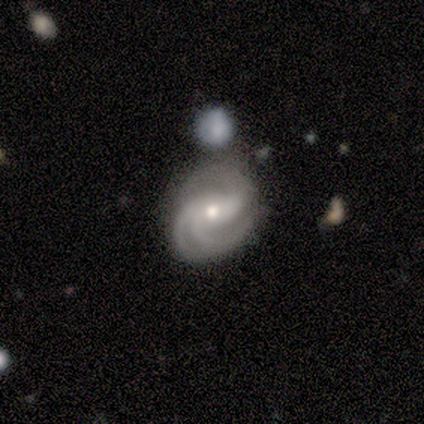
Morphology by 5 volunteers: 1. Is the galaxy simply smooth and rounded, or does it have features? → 100% featured or disk, 0% smooth, 0% star or artifact.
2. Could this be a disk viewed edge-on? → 100% no, 0% yes.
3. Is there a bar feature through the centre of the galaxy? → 40% strong (tied), 40% no (tied), 20% weak.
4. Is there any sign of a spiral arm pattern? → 100% yes, 0% no.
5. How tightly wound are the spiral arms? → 60% medium, 40% tight, 0% loose.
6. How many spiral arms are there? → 100% 3, 0% 1, 0% 2, 0% 4, 0% more than 4, 0% can't tell.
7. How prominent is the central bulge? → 60% small, 40% moderate, 0% dominant, 0% large, 0% none.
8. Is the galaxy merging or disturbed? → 60% none, 40% merger, 0% minor disturbance, 0% major disturbance.